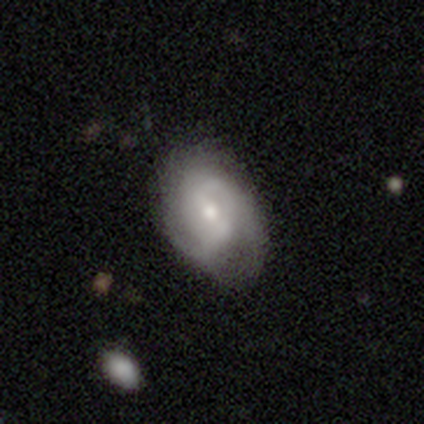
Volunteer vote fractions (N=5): smooth-or-featured: featured or disk: 80% | star or artifact: 20% | smooth: 0%
  disk-edge-on: no: 100% | yes: 0%
    bar: weak: 50% | strong: 25% | no: 25%
    has-spiral-arms: yes: 75% | no: 25%
      spiral-winding: tight: 33% (tied) | medium: 33% (tied) | loose: 33% (tied)
      spiral-arm-count: 2: 67% | 3: 33% | 1: 0% | 4: 0% | more than 4: 0% | can't tell: 0%
    bulge-size: small: 75% | moderate: 25% | dominant: 0% | large: 0% | none: 0%
  merging: none: 100% | minor disturbance: 0% | major disturbance: 0% | merger: 0%